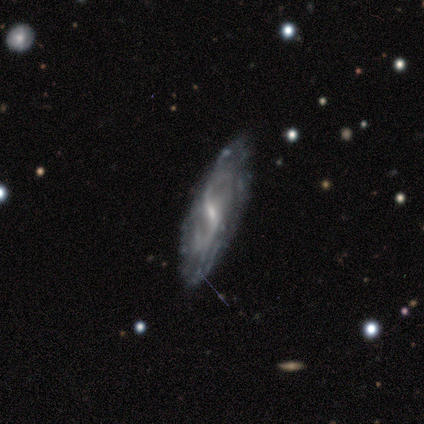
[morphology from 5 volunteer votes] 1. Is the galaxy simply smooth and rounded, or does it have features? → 100% featured or disk, 0% smooth, 0% star or artifact.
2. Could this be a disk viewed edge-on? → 80% no, 20% yes.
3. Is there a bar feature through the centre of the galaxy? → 100% weak, 0% strong, 0% no.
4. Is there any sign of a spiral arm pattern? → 100% yes, 0% no.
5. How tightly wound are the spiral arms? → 50% tight, 25% medium, 25% loose.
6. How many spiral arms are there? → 50% 2 (tied), 50% can't tell (tied), 0% 1, 0% 3, 0% 4, 0% more than 4.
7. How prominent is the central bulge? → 75% small, 25% none, 0% dominant, 0% large, 0% moderate.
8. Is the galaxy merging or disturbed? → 80% none, 20% major disturbance, 0% minor disturbance, 0% merger.